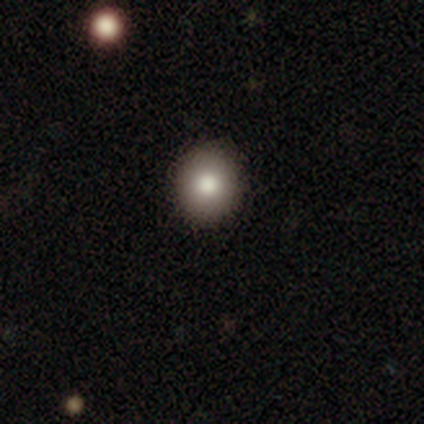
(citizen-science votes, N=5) A smooth galaxy with no disk features (60%) that is round (100%).

Vote fractions:
- Smooth or featured? smooth: 60% / featured or disk: 40% / star or artifact: 0%
- How rounded? round: 100% / in between: 0% / cigar-shaped: 0%
- Merging? none: 100% / minor disturbance: 0% / major disturbance: 0% / merger: 0%